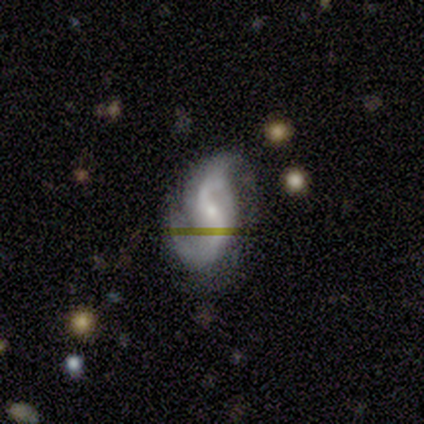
Smooth or featured?
  - featured or disk: 100% *
  - smooth: 0%
  - star or artifact: 0%
Edge-on disk?
  - no: 100% *
  - yes: 0%
Bar?
  - weak: 60% *
  - no: 40%
  - strong: 0%
Spiral arms?
  - yes: 100% *
  - no: 0%
Spiral winding?
  - loose: 60% *
  - medium: 40%
  - tight: 0%
Spiral arm count?
  - 2: 80% *
  - 3: 20%
  - 1: 0%
  - 4: 0%
  - more than 4: 0%
  - can't tell: 0%
Bulge size?
  - small: 100% *
  - dominant: 0%
  - large: 0%
  - moderate: 0%
  - none: 0%
Merging?
  - none: 80% *
  - minor disturbance: 20%
  - major disturbance: 0%
  - merger: 0%